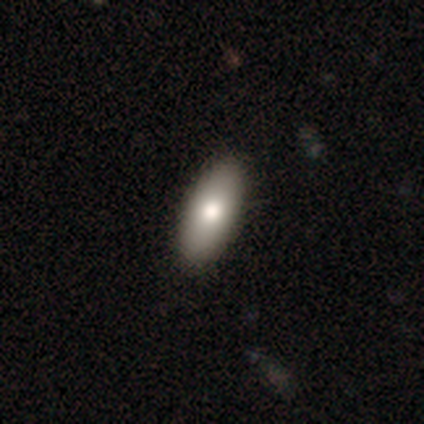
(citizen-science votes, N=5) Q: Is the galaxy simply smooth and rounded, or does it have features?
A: smooth — 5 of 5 (100%).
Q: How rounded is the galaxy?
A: in between — 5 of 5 (100%).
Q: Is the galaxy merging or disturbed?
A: none — 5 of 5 (100%).